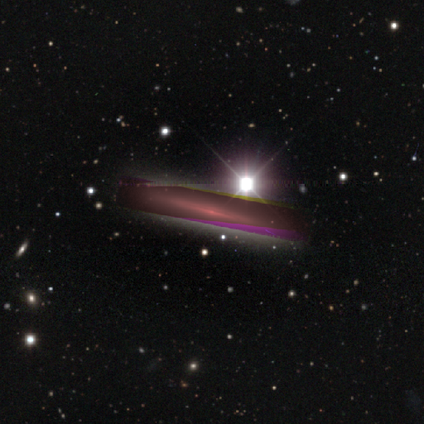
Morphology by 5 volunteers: Volunteers were most divided on "smooth or featured": star or artifact: 60%, featured or disk: 40%, smooth: 0%.